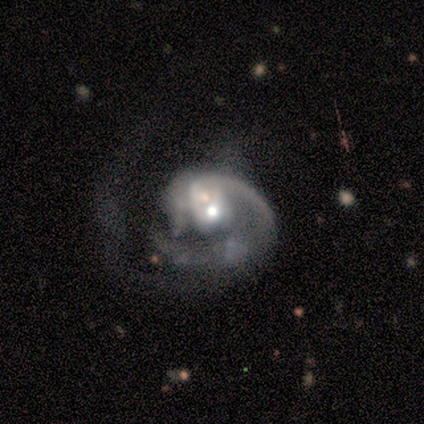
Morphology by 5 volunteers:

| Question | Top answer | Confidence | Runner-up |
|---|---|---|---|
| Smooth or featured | featured or disk | 80% | smooth (20%) |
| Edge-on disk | no | 100% | — |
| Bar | no | 75% | weak (25%) |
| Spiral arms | yes | 100% | — |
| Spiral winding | medium | 50% | tight (25%) |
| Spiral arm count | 1 | 100% | — |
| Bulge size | moderate | 50% | tied: small (50%) |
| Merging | merger | 40% | none (20%) |